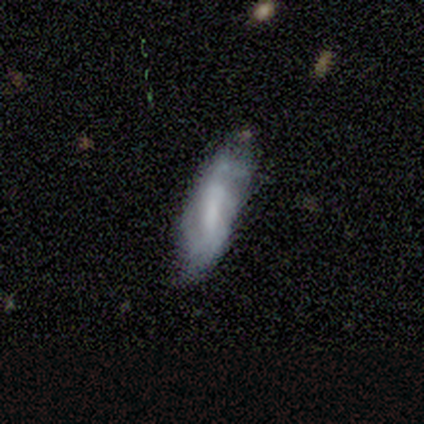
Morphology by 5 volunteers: Smooth or featured? 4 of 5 (80%) said smooth. How rounded? 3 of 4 (75%) said in between. Merging? 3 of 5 (60%) said none.